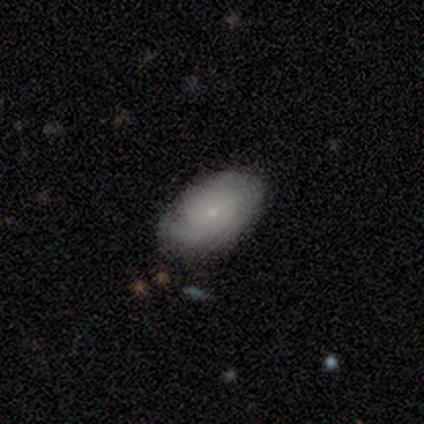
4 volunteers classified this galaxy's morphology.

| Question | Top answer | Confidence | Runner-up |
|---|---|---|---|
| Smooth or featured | smooth | 50% | tied: featured or disk (50%) |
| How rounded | in between | 100% | — |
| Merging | none | 75% | minor disturbance (25%) |